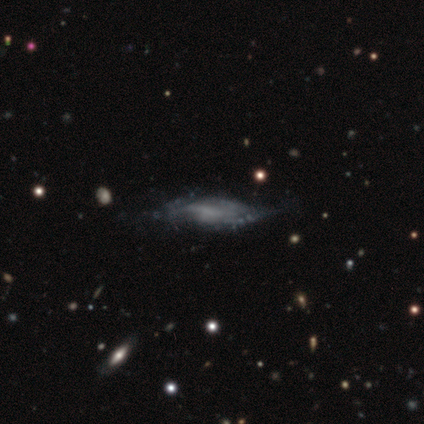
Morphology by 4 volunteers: Smooth or featured? 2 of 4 (50%, tied with featured or disk) said smooth. How rounded? 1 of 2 (50%, tied with cigar-shaped) said in between. Merging? 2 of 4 (50%) said none.